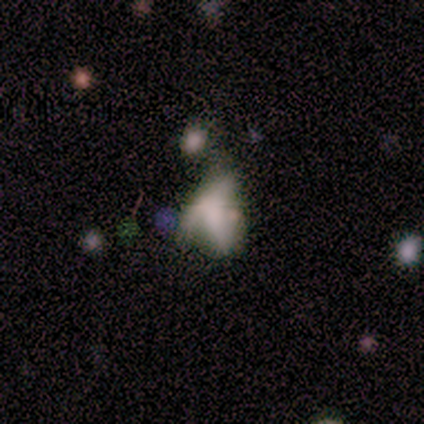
This appears to be a smooth galaxy with no disk features (40%, tied with featured or disk) that is in between round and cigar-shaped (100%). Merging: minor disturbance (50%).